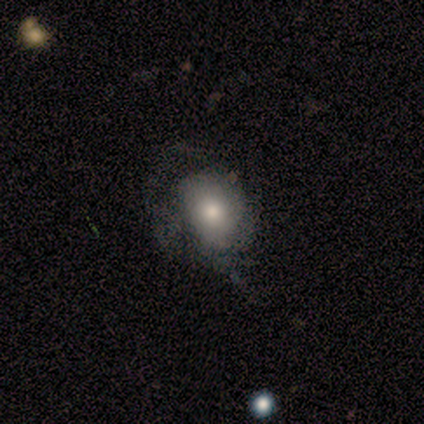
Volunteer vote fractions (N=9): Smooth or featured?
  - featured or disk: 56% *
  - smooth: 33%
  - star or artifact: 11%
Edge-on disk?
  - no: 100% *
  - yes: 0%
Bar?
  - no: 100% *
  - strong: 0%
  - weak: 0%
Spiral arms?
  - yes: 80% *
  - no: 20%
Spiral winding?
  - tight: 50% *
  - medium: 25%
  - loose: 25%
Spiral arm count?
  - can't tell: 75% *
  - 1: 25%
  - 2: 0%
  - 3: 0%
  - 4: 0%
  - more than 4: 0%
Bulge size?
  - large: 40% * (tied)
  - moderate: 40% * (tied)
  - dominant: 20%
  - small: 0%
  - none: 0%
Merging?
  - major disturbance: 50% *
  - none: 38%
  - minor disturbance: 12%
  - merger: 0%